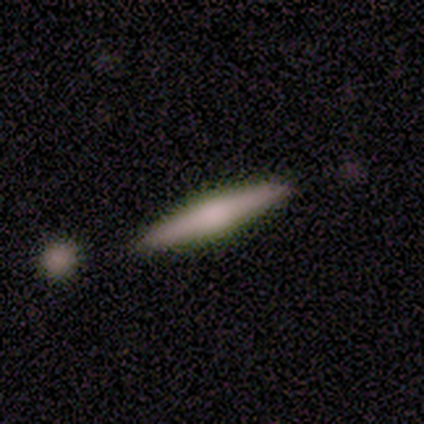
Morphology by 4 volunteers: Q: Smooth or featured?
A: smooth (75%); runner-up: featured or disk (25%)
Q: How rounded?
A: cigar-shaped (100%)
Q: Merging?
A: none (100%)